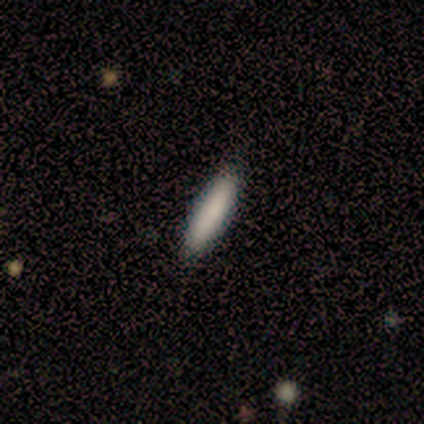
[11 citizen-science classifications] smooth-or-featured: smooth: 82% | featured or disk: 9% | star or artifact: 9%
  how-rounded: cigar-shaped: 67% | in between: 33% | round: 0%
  merging: none: 90% | minor disturbance: 10% | major disturbance: 0% | merger: 0%